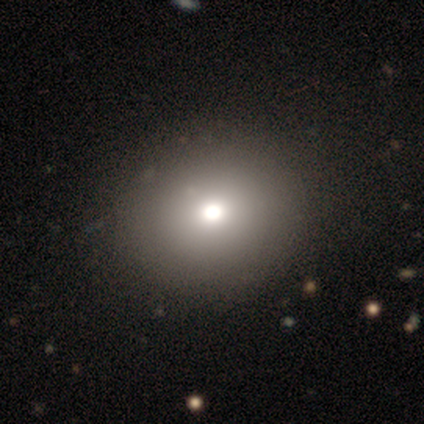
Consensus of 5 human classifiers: Volunteers were most divided on "how rounded": round: 60%, in between: 40%, cigar-shaped: 0%. More confident: smooth or featured — smooth (100%); merging — none (80%).